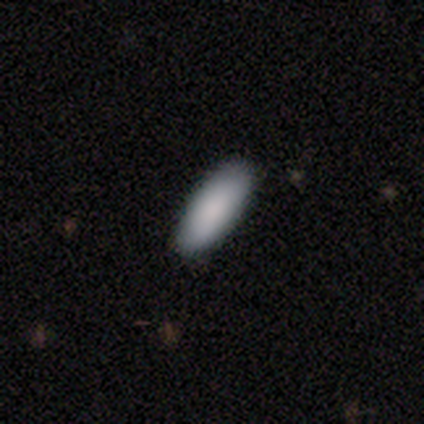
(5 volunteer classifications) smooth 100%, featured or disk 0%, star or artifact 0%. Down the decision tree: how rounded — in between (100%); merging — none (100%).